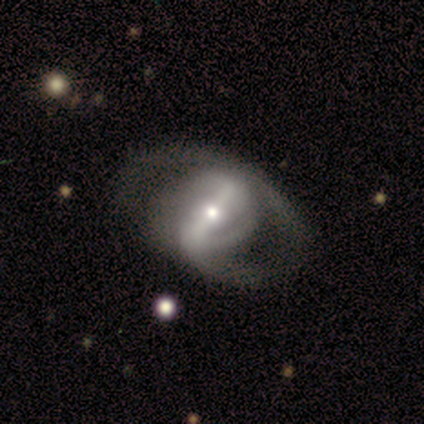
Morphology: type=featured or disk (80%); edge-on=no (98%); bar=strong (80%); spiral arms=yes (68%); winding=medium (44%); arm count=2 (63%); bulge=moderate (60%); merging=none (60%).